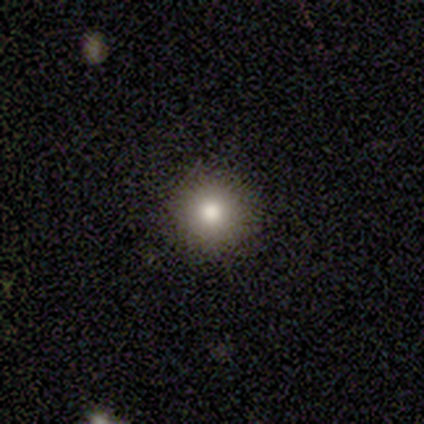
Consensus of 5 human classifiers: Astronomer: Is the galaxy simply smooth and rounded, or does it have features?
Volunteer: smooth — 100%.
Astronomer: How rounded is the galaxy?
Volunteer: round — 100%.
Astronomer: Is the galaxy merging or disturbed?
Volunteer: none — 100%.